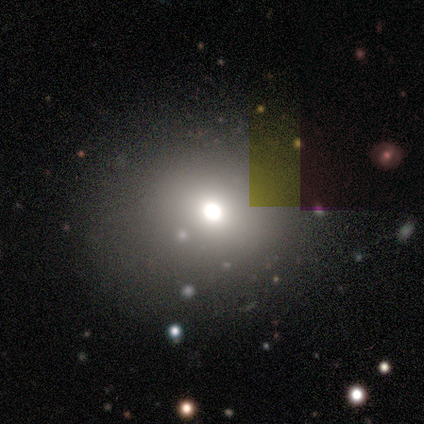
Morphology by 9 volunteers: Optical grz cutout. It shows a star or artifact, not a galaxy (56%).